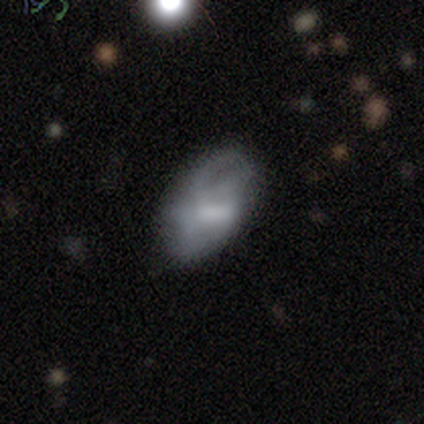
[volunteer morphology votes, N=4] A smooth galaxy with no disk features (75%) that is in between round and cigar-shaped (100%). Merging: none (67%).